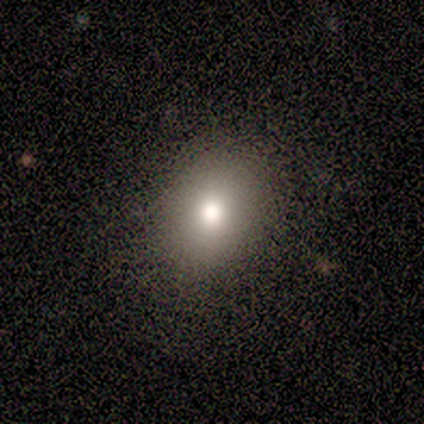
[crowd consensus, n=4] A smooth galaxy with no disk features (75%) that is in between round and cigar-shaped (100%).

Vote fractions:
- Smooth or featured? smooth: 75% / star or artifact: 25% / featured or disk: 0%
- How rounded? in between: 100% / round: 0% / cigar-shaped: 0%
- Merging? none: 67% / minor disturbance: 33% / major disturbance: 0% / merger: 0%